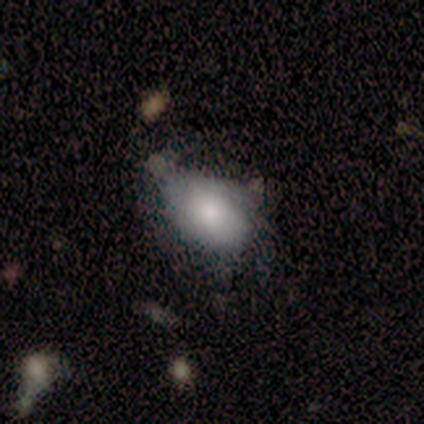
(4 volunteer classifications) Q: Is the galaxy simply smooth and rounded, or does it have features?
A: smooth — 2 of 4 (50%).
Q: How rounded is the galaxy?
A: in between — 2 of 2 (100%).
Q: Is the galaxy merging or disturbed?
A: none — 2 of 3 (67%).